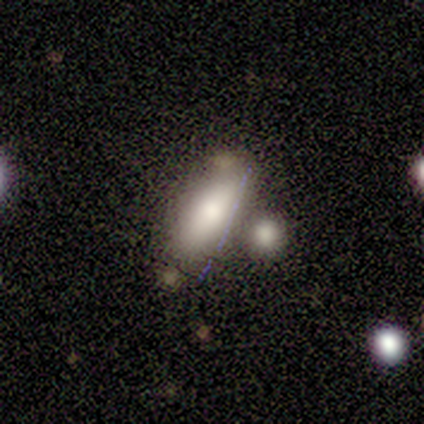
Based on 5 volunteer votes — Smooth or featured?
  - smooth: 80% *
  - featured or disk: 20%
  - star or artifact: 0%
How rounded?
  - in between: 100% *
  - round: 0%
  - cigar-shaped: 0%
Merging?
  - none: 80% *
  - merger: 20%
  - minor disturbance: 0%
  - major disturbance: 0%